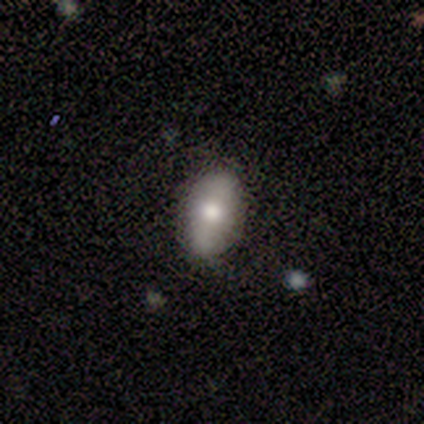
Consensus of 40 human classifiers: smooth-or-featured: smooth: 72% | featured or disk: 28% | star or artifact: 0%
  how-rounded: in between: 90% | round: 7% | cigar-shaped: 3%
  merging: none: 68% | minor disturbance: 30% | major disturbance: 2% | merger: 0%